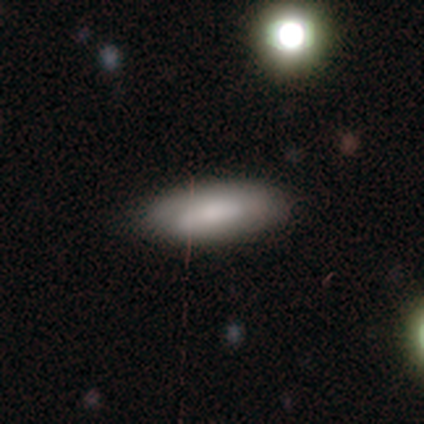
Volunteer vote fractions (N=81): A smooth galaxy with no disk features (77%) that is in between round and cigar-shaped (87%). Merging: none (39%).